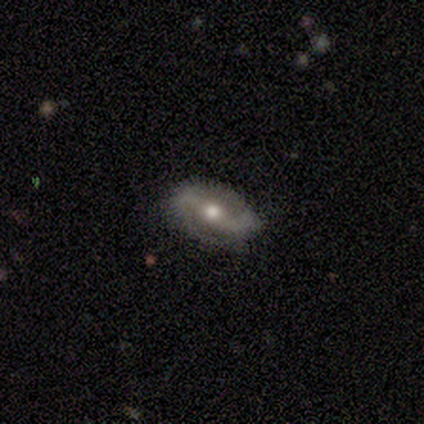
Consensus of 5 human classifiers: This is likely a smooth galaxy (60%). How rounded: clearly in between (100%). Merging: clearly none (100%).